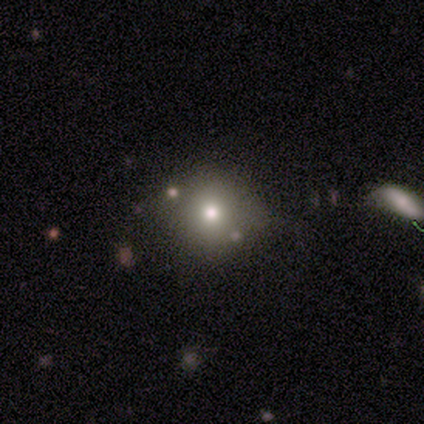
smooth_or_featured: smooth (p=1.00)
how_rounded: round (p=1.00)
merging: none (p=0.67) [alt: minor disturbance p=0.33]